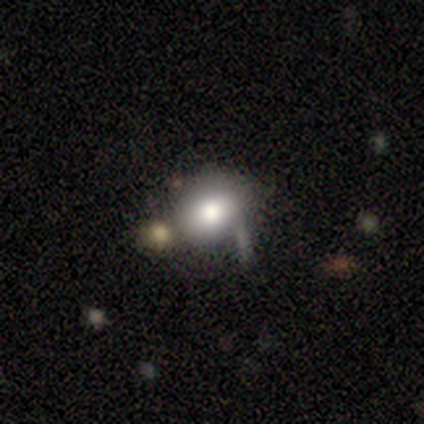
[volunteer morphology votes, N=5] This is clearly a smooth galaxy (80%). How rounded: clearly in between (100%). Merging: likely none (75%).